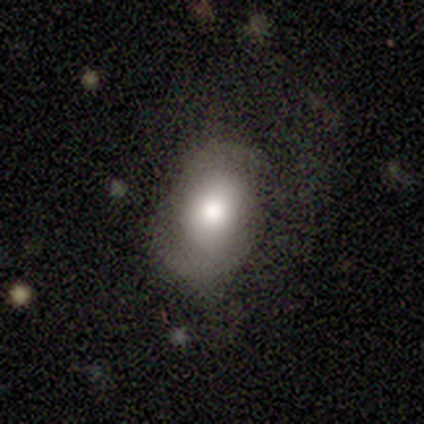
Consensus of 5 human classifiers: Q: Smooth or featured?
A: featured or disk (80%); runner-up: smooth (20%)
Q: Edge-on disk?
A: no (100%)
Q: Bar?
A: no (100%)
Q: Spiral arms?
A: yes (50%); tied with: no (50%)
Q: Spiral winding?
A: loose (100%)
Q: Spiral arm count?
A: 2 (100%)
Q: Bulge size?
A: large (50%); tied with: moderate (50%)
Q: Merging?
A: none (80%); runner-up: major disturbance (20%)